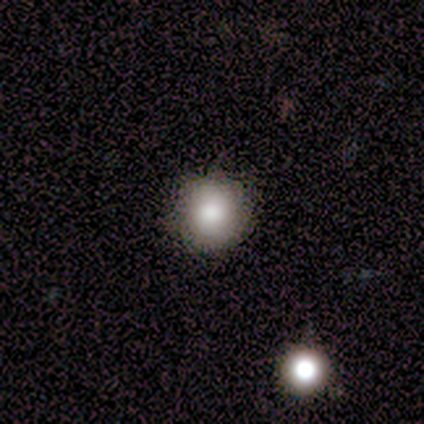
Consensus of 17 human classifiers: Smooth or featured? 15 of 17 (88%) said smooth. How rounded? 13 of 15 (87%) said round. Merging? 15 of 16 (94%) said none.